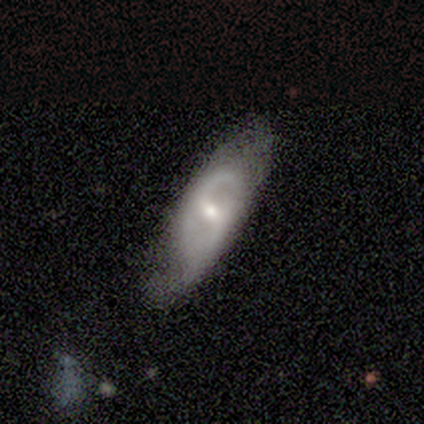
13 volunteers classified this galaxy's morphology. Overall: featured or disk (77%). Edge-on disk: no (80%). Bar: no (50%; strong 25%). Spiral arms: yes (75%). Spiral arm count: 2 (67%). Spiral winding: medium (67%). Bulge size: moderate (50%; small 38%). Merging: minor disturbance (50%; none 42%).